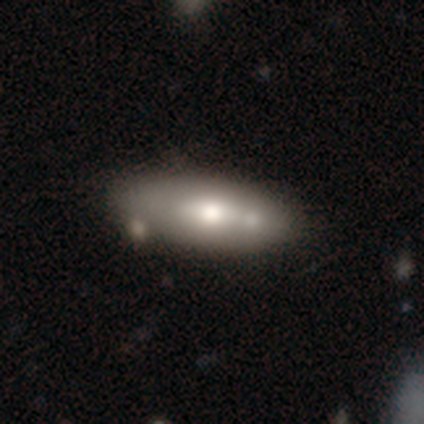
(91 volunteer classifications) smooth_or_featured: smooth (p=0.64) [alt: featured or disk p=0.34]
how_rounded: in between (p=0.71) [alt: cigar-shaped p=0.29]
merging: none (p=0.58) [alt: minor disturbance p=0.24]